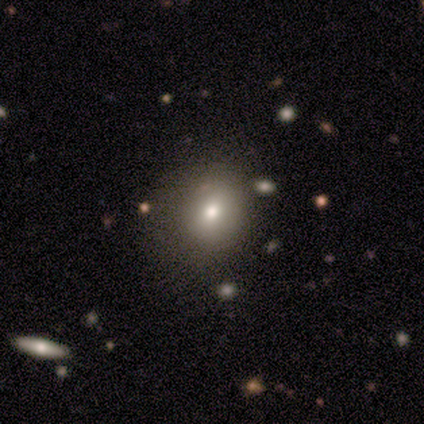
A smooth galaxy with no disk features (70%) that is round (54%). Merging: none (74%).